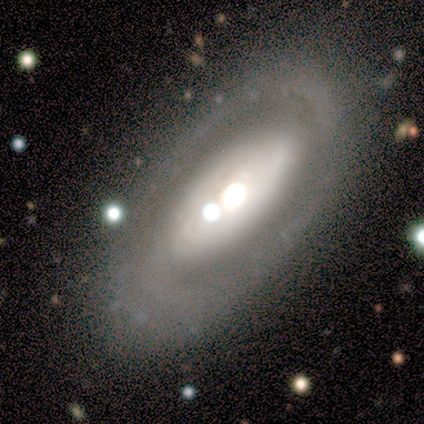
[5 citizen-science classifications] This appears to be a featured or disk galaxy (80%) with no bar (75%), 2 (75%) loose (50%) spiral arms (100%) and a large central bulge (50%, tied with moderate). Merging: none (60%).